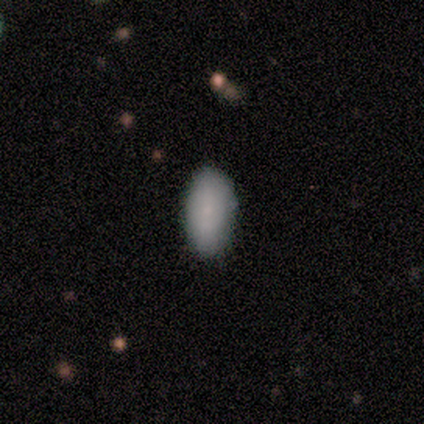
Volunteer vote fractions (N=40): A smooth galaxy with no disk features (90%) that is in between round and cigar-shaped (92%).

Vote fractions:
- Smooth or featured? smooth: 90% / featured or disk: 5% / star or artifact: 5%
- How rounded? in between: 92% / cigar-shaped: 6% / round: 3%
- Merging? none: 87% / minor disturbance: 11% / major disturbance: 3% / merger: 0%